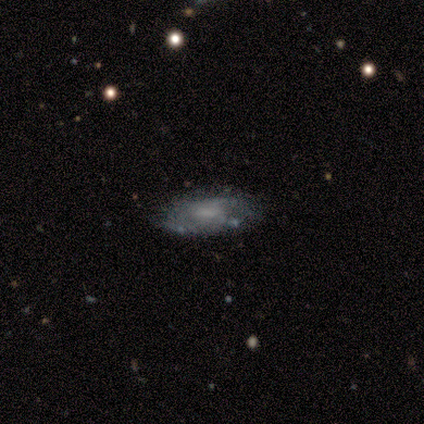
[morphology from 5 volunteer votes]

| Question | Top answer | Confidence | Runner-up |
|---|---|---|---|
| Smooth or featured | smooth | 60% | featured or disk (40%) |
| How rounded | in between | 67% | cigar-shaped (33%) |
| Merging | none | 60% | minor disturbance (40%) |